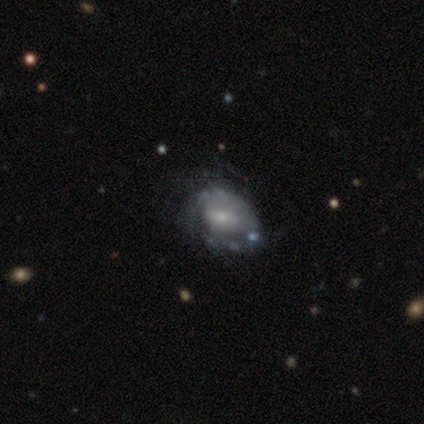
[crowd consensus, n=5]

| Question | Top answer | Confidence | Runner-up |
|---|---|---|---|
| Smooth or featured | featured or disk | 100% | — |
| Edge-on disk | no | 100% | — |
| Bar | no | 60% | strong (20%) |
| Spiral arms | no | 100% | — |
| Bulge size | small | 60% | moderate (40%) |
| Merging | none | 40% | tied: major disturbance (40%) |